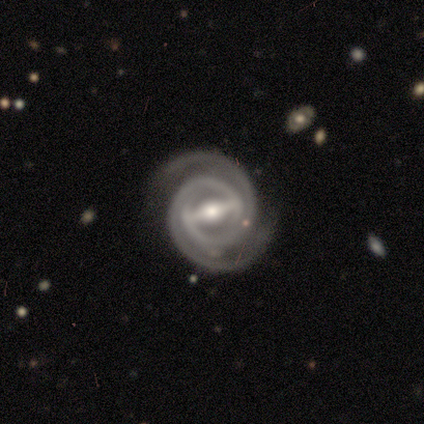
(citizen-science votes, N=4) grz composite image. It shows a featured or disk galaxy (100%) with a strong bar (75%), 2 (100%) tight (75%) spiral arms (100%) and a moderate central bulge (50%, tied with small). Merging: none (100%).